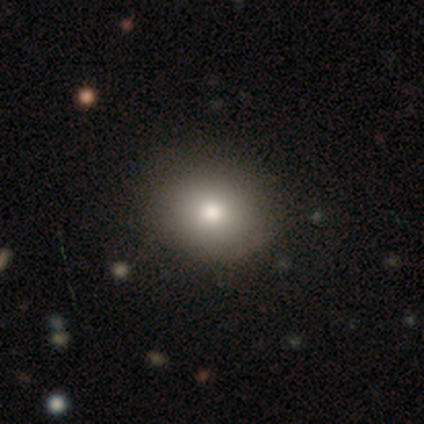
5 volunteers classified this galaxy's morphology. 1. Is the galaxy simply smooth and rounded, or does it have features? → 60% smooth, 20% featured or disk, 20% star or artifact.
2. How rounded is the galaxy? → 67% round, 33% in between, 0% cigar-shaped.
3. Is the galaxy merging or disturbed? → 100% none, 0% minor disturbance, 0% major disturbance, 0% merger.